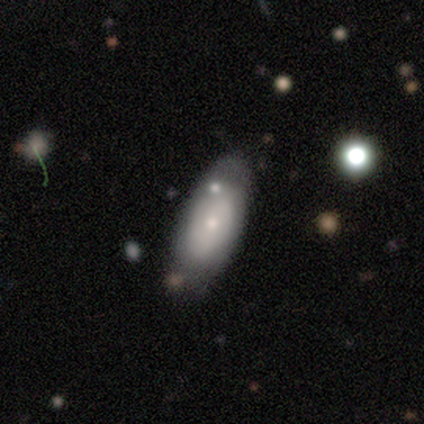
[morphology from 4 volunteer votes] A featured or disk galaxy (75%) with a strong bar (33%, tied with weak and no), 2 (67%) tight (67%) spiral arms (100%) and a small central bulge (100%).

Vote fractions:
- Smooth or featured? featured or disk: 75% / smooth: 25% / star or artifact: 0%
- Edge-on disk? no: 100% / yes: 0%
- Bar? strong: 33% (tied) / weak: 33% (tied) / no: 33% (tied)
- Spiral arms? yes: 100% / no: 0%
- Spiral winding? tight: 67% / medium: 33% / loose: 0%
- Spiral arm count? 2: 67% / 1: 33% / 3: 0% / 4: 0% / more than 4: 0% / can't tell: 0%
- Bulge size? small: 100% / dominant: 0% / large: 0% / moderate: 0% / none: 0%
- Merging? none: 50% (tied) / minor disturbance: 50% (tied) / major disturbance: 0% / merger: 0%